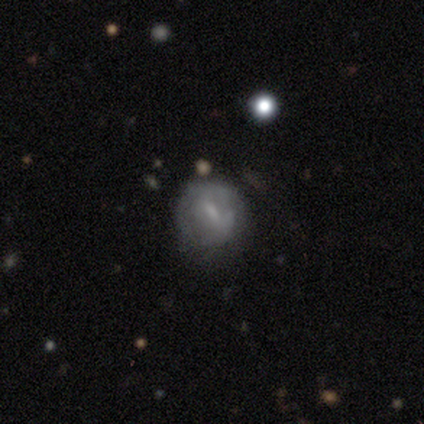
Smooth or featured?
  - featured or disk: 62% *
  - smooth: 30%
  - star or artifact: 8%
Edge-on disk?
  - no: 100% *
  - yes: 0%
Bar?
  - weak: 76% *
  - strong: 24%
  - no: 0%
Spiral arms?
  - no: 52% *
  - yes: 48%
Bulge size?
  - small: 52% *
  - moderate: 28%
  - none: 20%
  - dominant: 0%
  - large: 0%
Merging?
  - none: 51% *
  - minor disturbance: 32%
  - major disturbance: 16%
  - merger: 0%